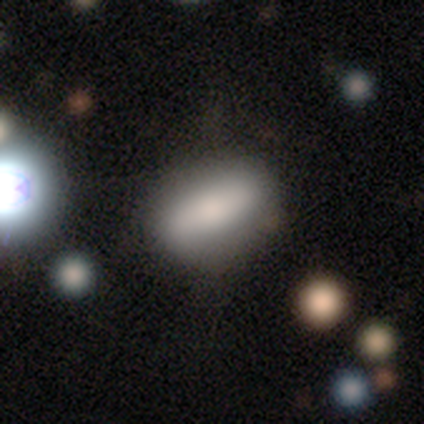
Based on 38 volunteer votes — Smooth or featured: smooth — 79% (featured or disk — 11%)
How rounded: in between — 70% (cigar-shaped — 27%)
Merging: none — 71% (minor disturbance — 18%)